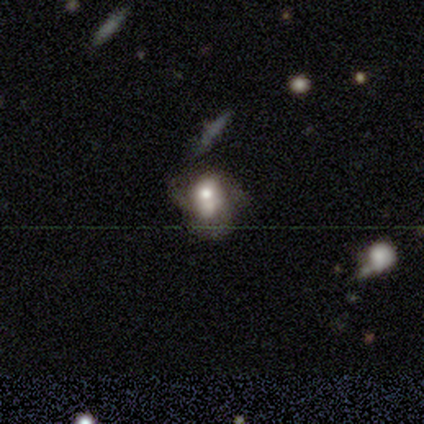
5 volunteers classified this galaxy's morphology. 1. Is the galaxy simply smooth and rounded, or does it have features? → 60% featured or disk, 40% smooth, 0% star or artifact.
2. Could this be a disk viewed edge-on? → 100% no, 0% yes.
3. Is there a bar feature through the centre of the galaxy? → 67% no, 33% weak, 0% strong.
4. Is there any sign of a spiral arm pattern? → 67% no, 33% yes.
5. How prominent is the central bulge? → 33% large (tied), 33% small (tied), 33% none (tied), 0% dominant, 0% moderate.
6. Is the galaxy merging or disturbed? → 40% none, 20% minor disturbance, 20% major disturbance, 20% merger.